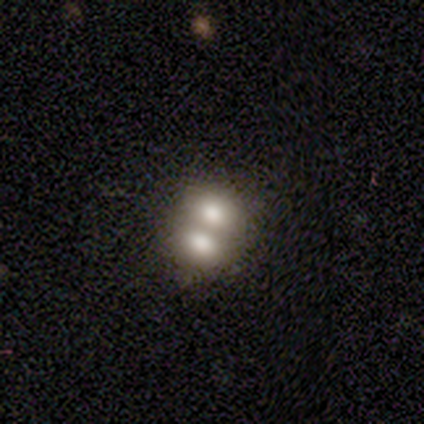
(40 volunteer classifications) Smooth or featured: smooth — 60% (featured or disk — 35%)
How rounded: in between — 54% (round — 46%)
Merging: merger — 76% (none — 18%)